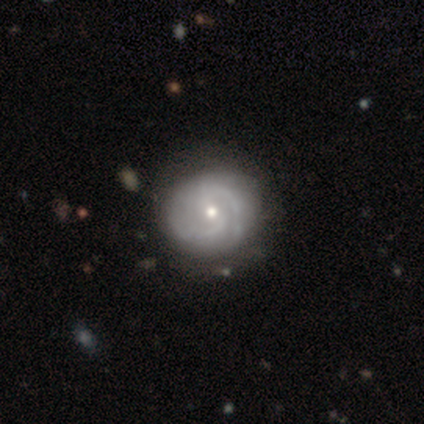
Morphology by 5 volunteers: This appears to be a featured or disk galaxy (60%) with a weak bar (67%), 2 (100%) medium (100%) spiral arms (100%) and a small central bulge (100%). Merging: none (100%).